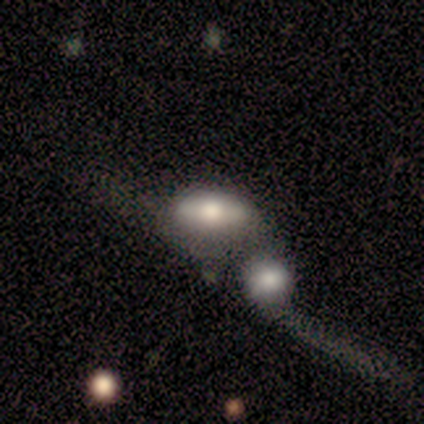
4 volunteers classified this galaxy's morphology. Smooth or featured? smooth (100%)
How rounded? in between (100%)
Merging? none (50%, tied with merger)